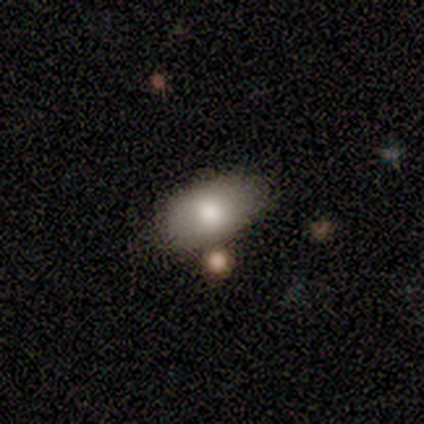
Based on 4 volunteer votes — Smooth or featured? 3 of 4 (75%) said smooth. How rounded? 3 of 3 (100%) said in between. Merging? 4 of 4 (100%) said none.